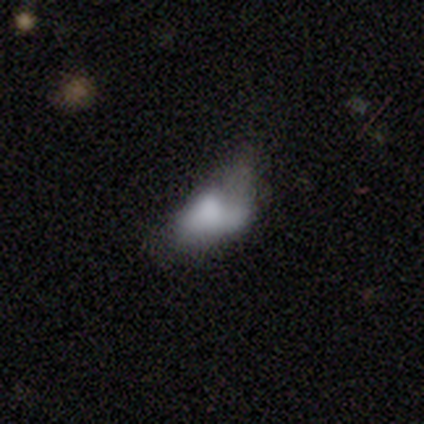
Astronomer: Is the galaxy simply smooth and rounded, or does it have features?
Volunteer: smooth — 60%.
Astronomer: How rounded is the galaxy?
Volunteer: in between — 100%.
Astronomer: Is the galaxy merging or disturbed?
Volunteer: minor disturbance — 50%.